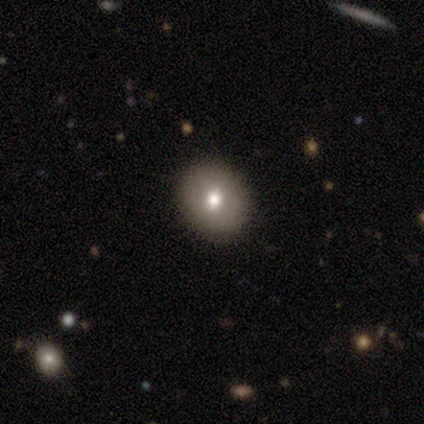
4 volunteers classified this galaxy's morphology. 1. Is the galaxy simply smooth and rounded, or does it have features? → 75% featured or disk, 25% smooth, 0% star or artifact.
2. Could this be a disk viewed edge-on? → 100% no, 0% yes.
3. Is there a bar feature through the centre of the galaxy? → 100% no, 0% strong, 0% weak.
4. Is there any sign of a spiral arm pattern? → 100% no, 0% yes.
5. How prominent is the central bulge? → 100% moderate, 0% dominant, 0% large, 0% small, 0% none.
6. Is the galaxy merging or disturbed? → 100% none, 0% minor disturbance, 0% major disturbance, 0% merger.